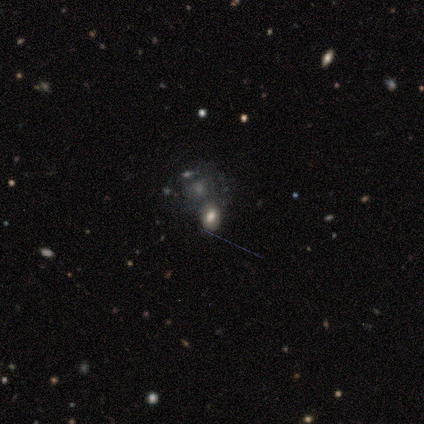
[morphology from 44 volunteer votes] A smooth galaxy with no disk features (52%) that is in between round and cigar-shaped (83%).

Vote fractions:
- Smooth or featured? smooth: 52% / featured or disk: 25% / star or artifact: 23%
- How rounded? in between: 83% / round: 17% / cigar-shaped: 0%
- Merging? none: 56% / merger: 24% / minor disturbance: 15% / major disturbance: 6%